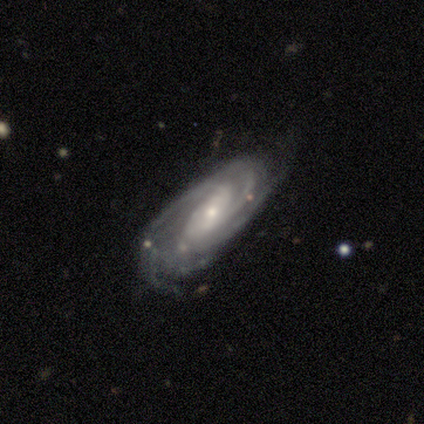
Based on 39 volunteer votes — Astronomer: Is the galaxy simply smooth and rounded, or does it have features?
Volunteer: featured or disk — 95%.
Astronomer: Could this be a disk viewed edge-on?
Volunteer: no — 92%.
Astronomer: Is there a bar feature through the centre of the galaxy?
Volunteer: strong — 38% (runner-up: no, 32%).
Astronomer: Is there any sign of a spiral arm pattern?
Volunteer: yes — 97%.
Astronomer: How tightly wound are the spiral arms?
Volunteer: tight — 48% (runner-up: medium, 39%).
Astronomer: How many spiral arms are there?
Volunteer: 3 — 36% (runner-up: 4, 21%).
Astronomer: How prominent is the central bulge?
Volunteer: small — 65%.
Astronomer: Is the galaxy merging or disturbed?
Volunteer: none — 74%.